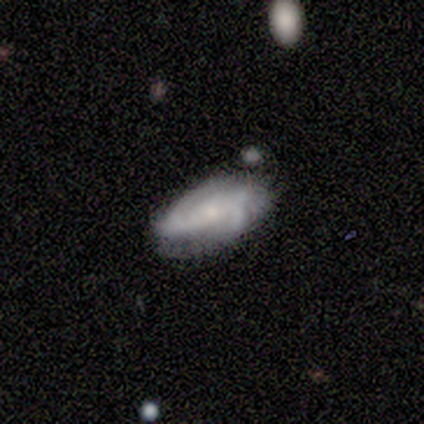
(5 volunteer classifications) Smooth or featured?
  - featured or disk: 100% *
  - smooth: 0%
  - star or artifact: 0%
Edge-on disk?
  - no: 100% *
  - yes: 0%
Bar?
  - no: 100% *
  - strong: 0%
  - weak: 0%
Spiral arms?
  - yes: 100% *
  - no: 0%
Spiral winding?
  - tight: 80% *
  - medium: 20%
  - loose: 0%
Spiral arm count?
  - 2: 80% *
  - 3: 20%
  - 1: 0%
  - 4: 0%
  - more than 4: 0%
  - can't tell: 0%
Bulge size?
  - small: 80% *
  - moderate: 20%
  - dominant: 0%
  - large: 0%
  - none: 0%
Merging?
  - none: 60% *
  - major disturbance: 20%
  - merger: 20%
  - minor disturbance: 0%